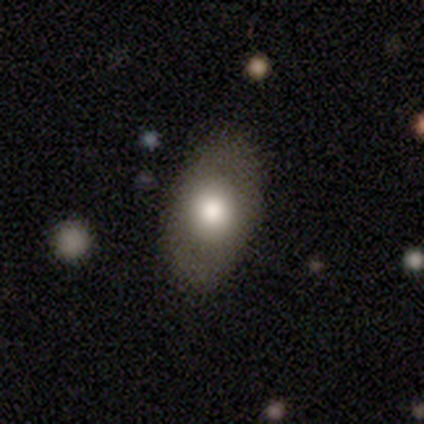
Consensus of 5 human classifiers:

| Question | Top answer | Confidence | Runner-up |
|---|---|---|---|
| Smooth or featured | featured or disk | 60% | smooth (40%) |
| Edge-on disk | no | 67% | yes (33%) |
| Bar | no | 100% | — |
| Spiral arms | no | 100% | — |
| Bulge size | large | 50% | tied: moderate (50%) |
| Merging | none | 80% | minor disturbance (20%) |